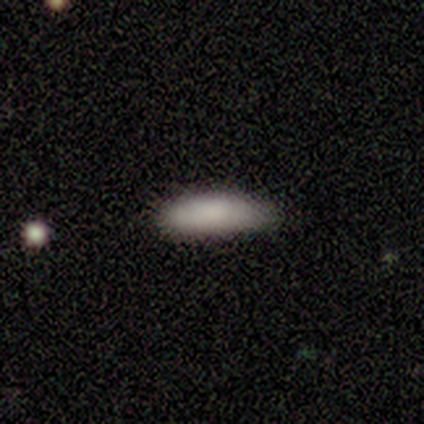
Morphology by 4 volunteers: Smooth or featured? 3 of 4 (75%) said smooth. How rounded? 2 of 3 (67%) said in between. Merging? 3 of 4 (75%) said minor disturbance.